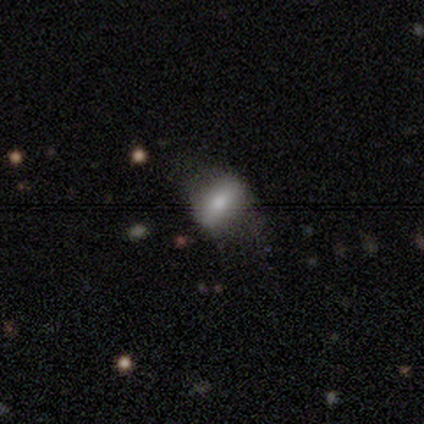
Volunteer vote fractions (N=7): Smooth or featured?
  - smooth: 86% *
  - star or artifact: 14%
  - featured or disk: 0%
How rounded?
  - in between: 67% *
  - cigar-shaped: 33%
  - round: 0%
Merging?
  - none: 50% *
  - minor disturbance: 33%
  - major disturbance: 17%
  - merger: 0%